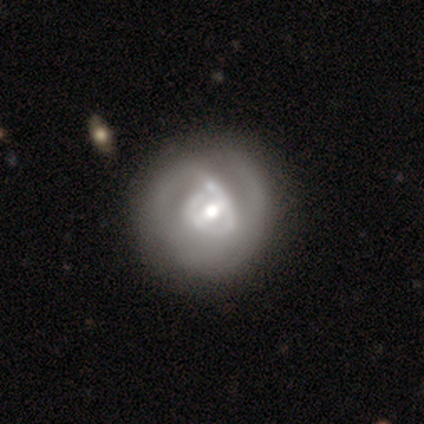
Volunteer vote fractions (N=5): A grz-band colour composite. It shows a featured or disk galaxy (60%) with a weak bar (67%), 2 (100%) tight (67%) spiral arms (100%) and a large central bulge (67%). Merging: none (40%, tied with major disturbance).